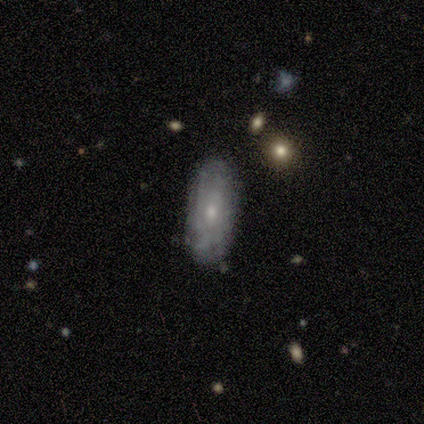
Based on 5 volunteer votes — Smooth or featured? smooth (60%)
How rounded? in between (100%)
Merging? none (100%)